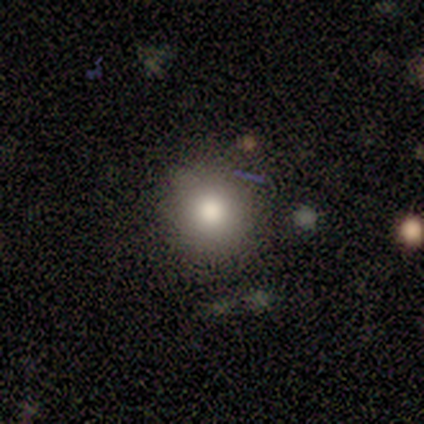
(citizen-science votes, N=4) Volunteers were most divided on "smooth or featured": smooth: 75%, featured or disk: 25%, star or artifact: 0%. More confident: how rounded — round (100%); merging — none (100%).